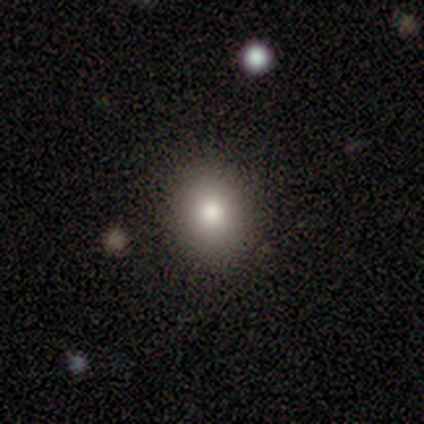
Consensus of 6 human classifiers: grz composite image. It shows a smooth galaxy with no disk features (100%) that is round (50%, tied with in between). Merging: none (100%).